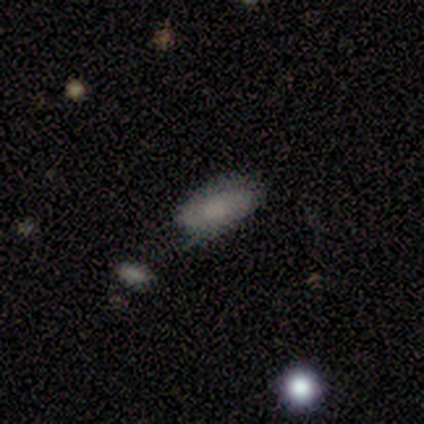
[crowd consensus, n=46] A smooth galaxy with no disk features (67%) that is in between round and cigar-shaped (71%). Merging: none (67%).